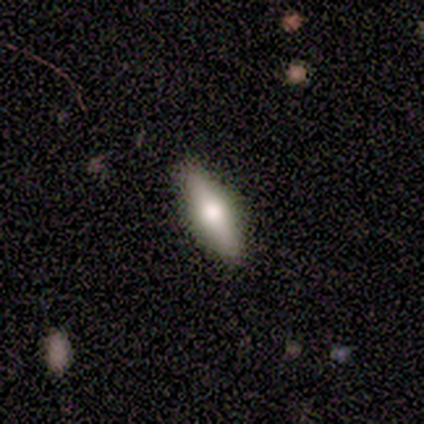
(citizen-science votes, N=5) smooth_or_featured: smooth (p=1.00)
how_rounded: in between (p=0.60) [alt: round p=0.20]
merging: none (p=0.80) [alt: major disturbance p=0.20]